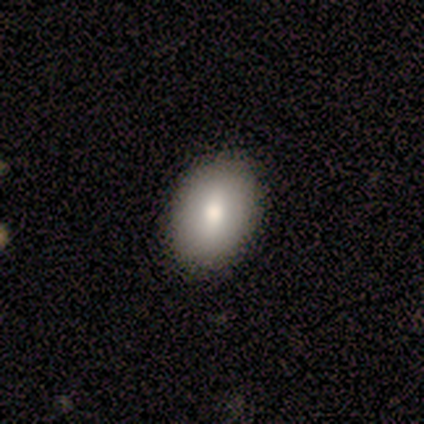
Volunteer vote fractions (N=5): Smooth or featured?
  - smooth: 100% *
  - featured or disk: 0%
  - star or artifact: 0%
How rounded?
  - in between: 100% *
  - round: 0%
  - cigar-shaped: 0%
Merging?
  - none: 100% *
  - minor disturbance: 0%
  - major disturbance: 0%
  - merger: 0%